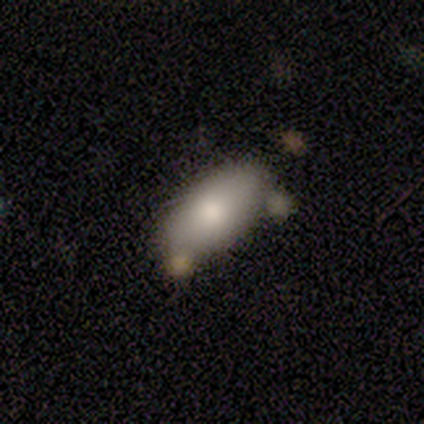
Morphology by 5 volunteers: Smooth or featured? smooth (40%, tied with featured or disk)
How rounded? in between (100%)
Merging? none (75%)